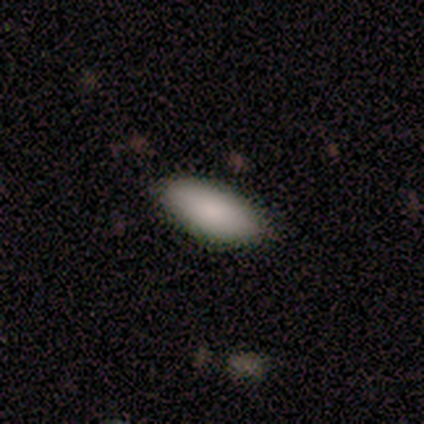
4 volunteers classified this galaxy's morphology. A smooth galaxy with no disk features (75%) that is in between round and cigar-shaped (67%).

Vote fractions:
- Smooth or featured? smooth: 75% / featured or disk: 25% / star or artifact: 0%
- How rounded? in between: 67% / cigar-shaped: 33% / round: 0%
- Merging? none: 75% / minor disturbance: 25% / major disturbance: 0% / merger: 0%